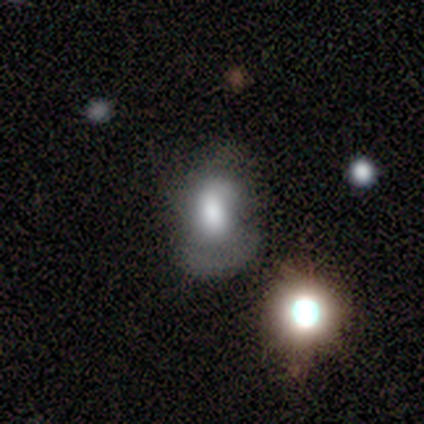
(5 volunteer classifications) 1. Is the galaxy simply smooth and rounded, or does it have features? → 60% featured or disk, 40% smooth, 0% star or artifact.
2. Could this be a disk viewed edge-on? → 100% no, 0% yes.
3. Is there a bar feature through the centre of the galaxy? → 67% no, 33% weak, 0% strong.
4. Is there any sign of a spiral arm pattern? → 67% no, 33% yes.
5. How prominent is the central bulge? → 100% large, 0% dominant, 0% moderate, 0% small, 0% none.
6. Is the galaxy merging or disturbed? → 60% major disturbance, 20% minor disturbance, 20% merger, 0% none.